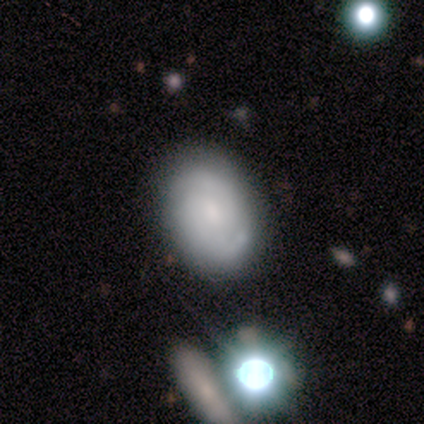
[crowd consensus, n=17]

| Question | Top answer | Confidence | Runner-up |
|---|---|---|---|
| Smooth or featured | featured or disk | 47% | smooth (35%) |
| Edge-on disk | no | 100% | — |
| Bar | no | 62% | weak (25%) |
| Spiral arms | yes | 75% | no (25%) |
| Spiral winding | tight | 67% | medium (33%) |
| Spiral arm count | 2 | 83% | can't tell (17%) |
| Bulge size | large | 25% | tied: moderate (25%), small (25%), none (25%) |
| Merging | none | 43% | merger (21%) |